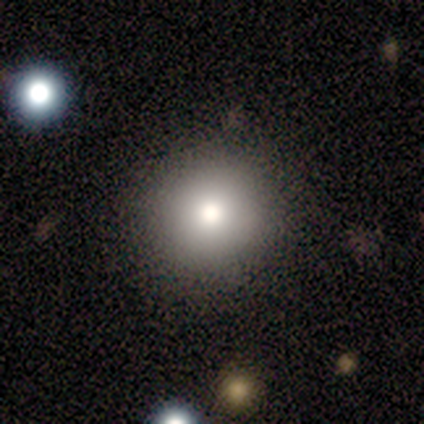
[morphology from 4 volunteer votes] Smooth or featured? smooth (75%)
How rounded? round (100%)
Merging? none (100%)